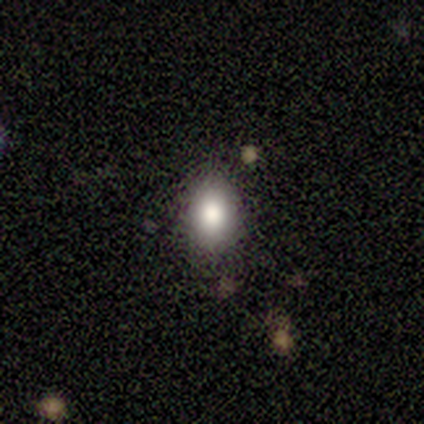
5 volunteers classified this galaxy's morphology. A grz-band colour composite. It shows a smooth galaxy with no disk features (80%) that is in between round and cigar-shaped (75%). Merging: none (75%).